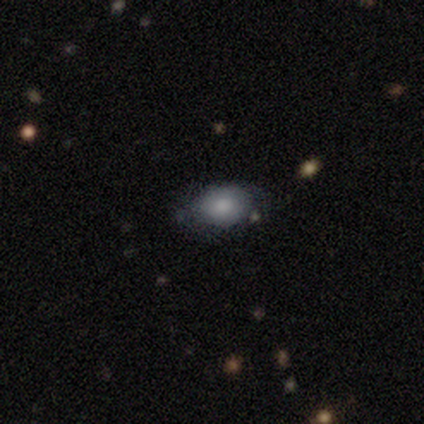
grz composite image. It shows a smooth galaxy with no disk features (100%) that is in between round and cigar-shaped (80%). Merging: none (80%).